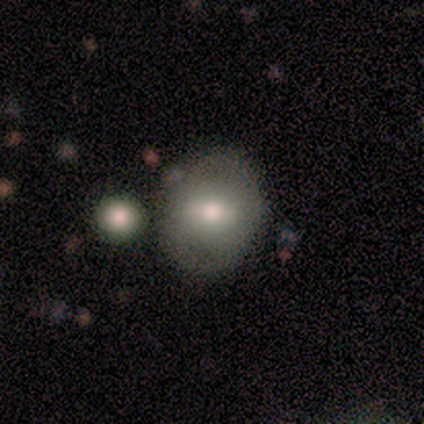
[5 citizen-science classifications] Smooth or featured: smooth — 60% (featured or disk — 40%)
How rounded: round — 67% (in between — 33%)
Merging: none — 100%